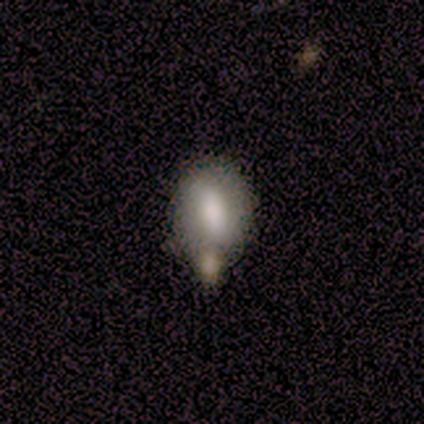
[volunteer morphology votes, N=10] Smooth or featured? 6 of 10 (60%) said smooth. How rounded? 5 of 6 (83%) said in between. Merging? 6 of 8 (75%) said none.